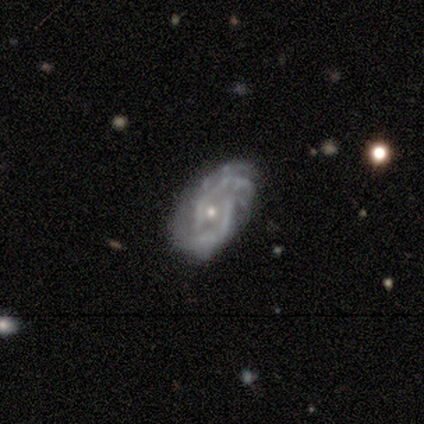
Smooth or featured? 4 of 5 (80%) said featured or disk. Edge-on disk? 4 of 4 (100%) said no. Bar? 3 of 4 (75%) said weak. Spiral arms? 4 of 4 (100%) said yes. Spiral winding? 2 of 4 (50%) said medium. Spiral arm count? 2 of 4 (50%, tied with 3) said 2. Bulge size? 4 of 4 (100%) said small. Merging? 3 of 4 (75%) said none.